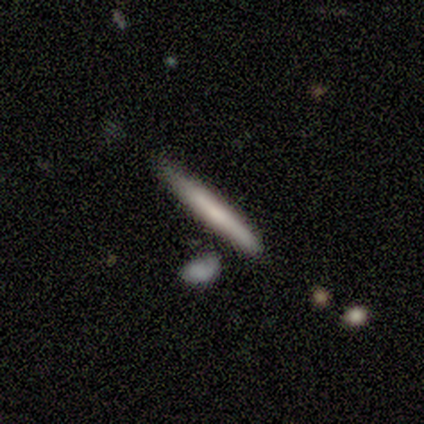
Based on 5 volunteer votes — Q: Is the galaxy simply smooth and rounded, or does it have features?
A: smooth — 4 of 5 (80%).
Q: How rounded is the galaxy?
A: cigar-shaped — 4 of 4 (100%).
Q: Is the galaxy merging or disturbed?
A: none — 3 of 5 (60%).